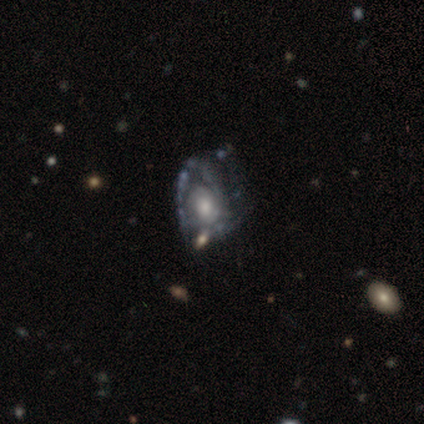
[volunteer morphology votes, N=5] Smooth or featured? 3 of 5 (60%) said featured or disk. Edge-on disk? 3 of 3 (100%) said no. Bar? 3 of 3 (100%) said no. Spiral arms? 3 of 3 (100%) said yes. Spiral winding? 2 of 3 (67%) said tight. Spiral arm count? 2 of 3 (67%) said can't tell. Bulge size? 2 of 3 (67%) said moderate. Merging? 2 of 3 (67%) said none.